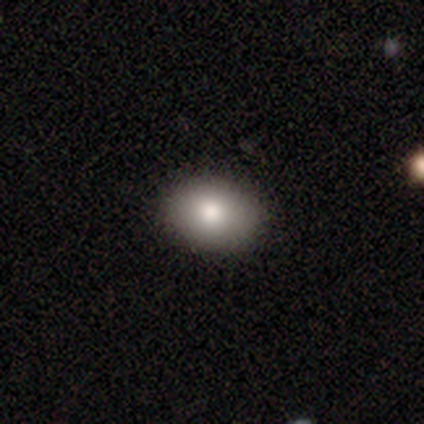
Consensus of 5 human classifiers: Smooth or featured: smooth — 100%
How rounded: in between — 100%
Merging: none — 80% (major disturbance — 20%)